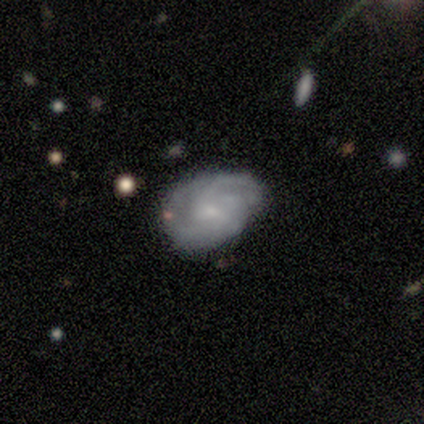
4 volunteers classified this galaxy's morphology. Smooth or featured? 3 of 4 (75%) said featured or disk. Edge-on disk? 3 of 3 (100%) said no. Bar? 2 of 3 (67%) said no. Spiral arms? 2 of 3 (67%) said yes. Spiral winding? 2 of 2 (100%) said tight. Spiral arm count? 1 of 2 (50%, tied with 3) said 2. Bulge size? 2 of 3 (67%) said small. Merging? 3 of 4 (75%) said none.